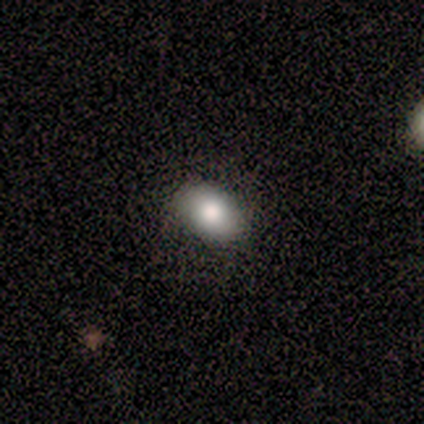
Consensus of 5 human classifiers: Morphology: type=smooth (40%, tied with featured or disk); roundness=in between (100%); merging=none (100%).